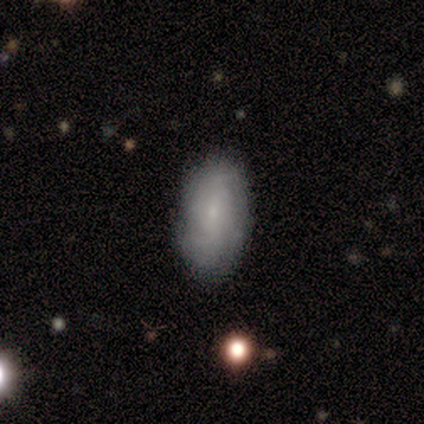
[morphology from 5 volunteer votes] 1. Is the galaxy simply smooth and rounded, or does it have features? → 40% smooth (tied), 40% featured or disk (tied), 20% star or artifact.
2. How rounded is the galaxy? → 100% in between, 0% round, 0% cigar-shaped.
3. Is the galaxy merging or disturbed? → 50% none (tied), 50% minor disturbance (tied), 0% major disturbance, 0% merger.